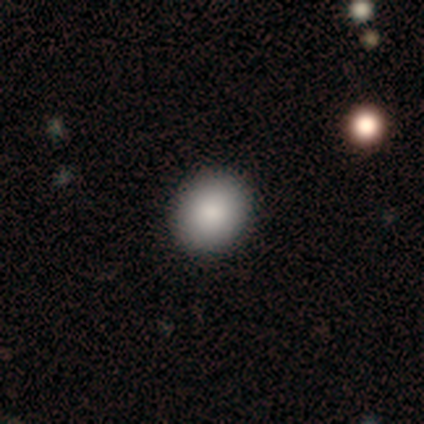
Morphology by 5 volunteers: Smooth or featured? smooth (80%)
How rounded? round (50%, tied with in between)
Merging? none (75%)